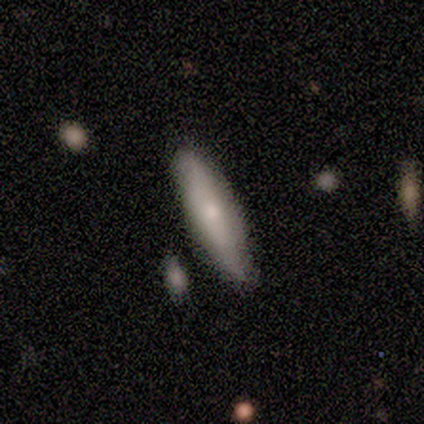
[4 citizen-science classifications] Smooth or featured: smooth — 100%
How rounded: cigar-shaped — 100%
Merging: none — 100%